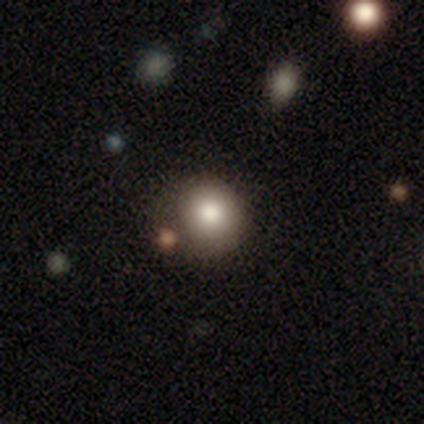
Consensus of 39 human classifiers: smooth-or-featured: smooth: 67% | featured or disk: 18% | star or artifact: 15%
  how-rounded: round: 92% | in between: 8% | cigar-shaped: 0%
  merging: none: 82% | major disturbance: 12% | minor disturbance: 6% | merger: 0%